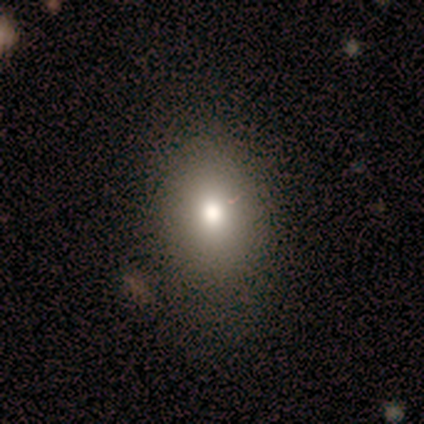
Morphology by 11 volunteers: Smooth or featured? 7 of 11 (64%) said smooth. How rounded? 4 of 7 (57%) said in between. Merging? 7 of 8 (88%) said none.